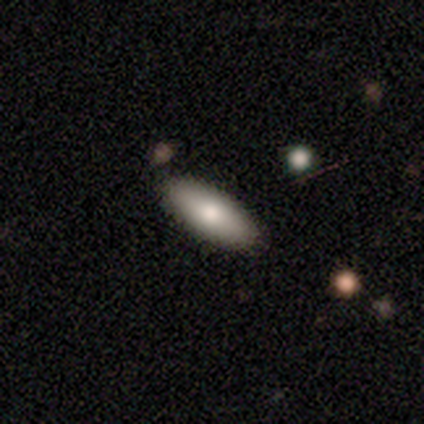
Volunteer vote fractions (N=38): A smooth galaxy with no disk features (71%) that is in between round and cigar-shaped (70%). Merging: none (94%).